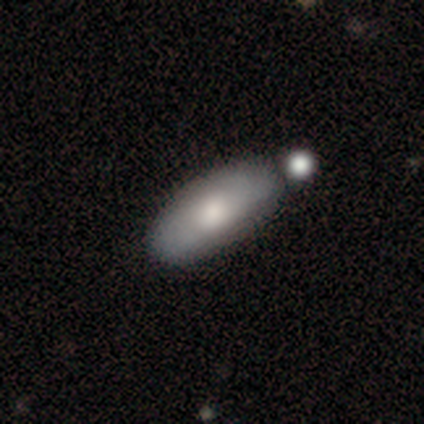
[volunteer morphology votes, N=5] This is clearly a smooth galaxy (100%). How rounded: clearly in between (100%). Merging: likely minor disturbance (60%).